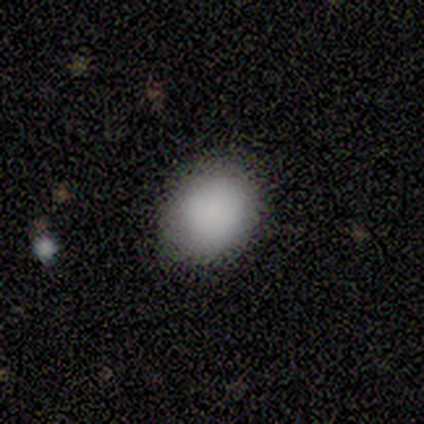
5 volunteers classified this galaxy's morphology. This is clearly a smooth galaxy (100%). How rounded: likely in between (60%). Merging: clearly none (100%).